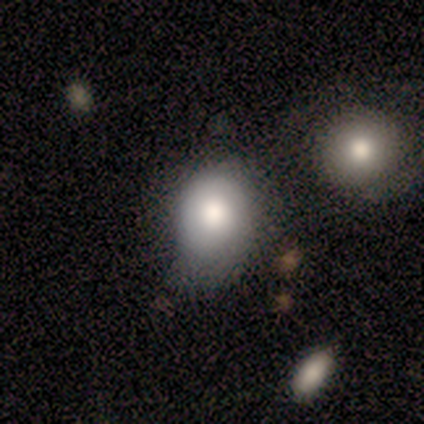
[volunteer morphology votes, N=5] A smooth galaxy with no disk features (100%) that is in between round and cigar-shaped (80%).

Vote fractions:
- Smooth or featured? smooth: 100% / featured or disk: 0% / star or artifact: 0%
- How rounded? in between: 80% / round: 20% / cigar-shaped: 0%
- Merging? none: 40% (tied) / minor disturbance: 40% (tied) / major disturbance: 20% / merger: 0%